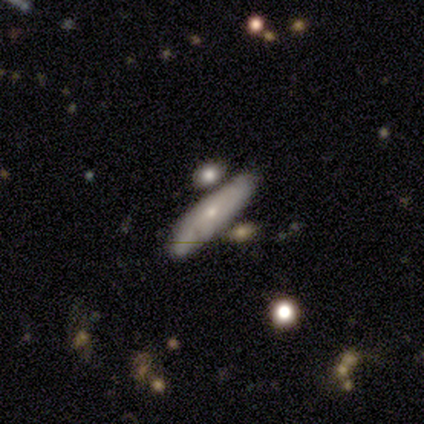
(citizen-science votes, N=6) Smooth or featured: smooth — 83% (star or artifact — 17%)
How rounded: cigar-shaped — 60% (in between — 40%)
Merging: none — 40% (tied with merger — 40%)